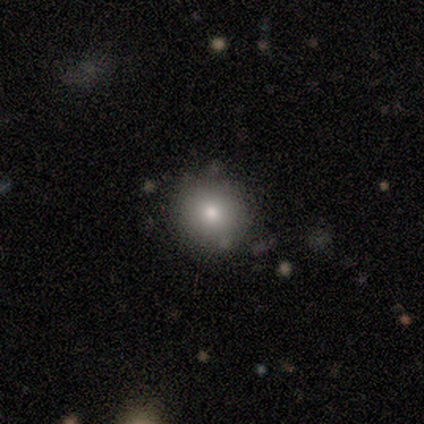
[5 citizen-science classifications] Consensus on every question: smooth or featured — smooth (100%); how rounded — round (100%); merging — none (100%).